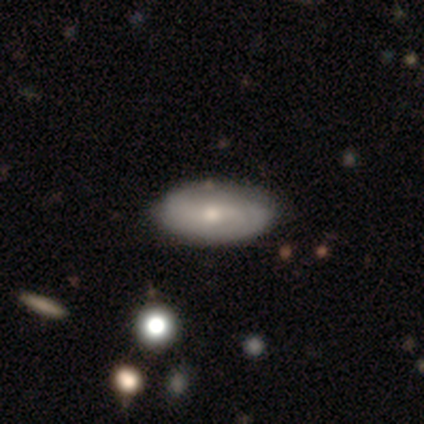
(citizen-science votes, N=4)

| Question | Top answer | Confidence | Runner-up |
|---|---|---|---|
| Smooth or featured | smooth | 50% | tied: featured or disk (50%) |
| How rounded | in between | 100% | — |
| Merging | none | 25% | tied: minor disturbance (25%), major disturbance (25%), merger (25%) |